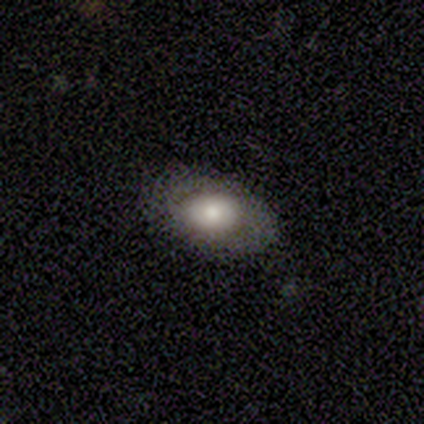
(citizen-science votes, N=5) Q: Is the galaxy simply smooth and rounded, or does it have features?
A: featured or disk — 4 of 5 (80%).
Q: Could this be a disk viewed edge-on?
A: no — 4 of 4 (100%).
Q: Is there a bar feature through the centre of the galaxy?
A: no — 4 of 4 (100%).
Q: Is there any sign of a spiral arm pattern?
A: no — 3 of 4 (75%).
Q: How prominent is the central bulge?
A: dominant — 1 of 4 (25%, tied with large, moderate and small).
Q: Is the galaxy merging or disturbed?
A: none — 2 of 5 (40%, tied with minor disturbance).